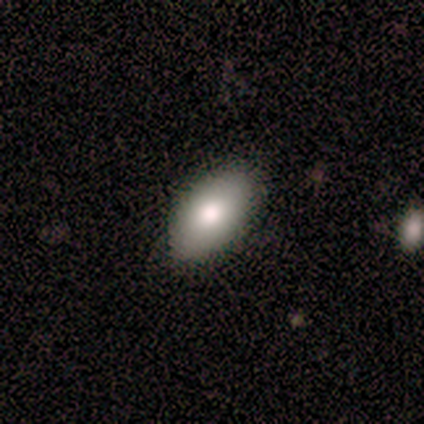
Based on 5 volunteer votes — Smooth or featured? smooth (60%)
How rounded? in between (100%)
Merging? none (80%)